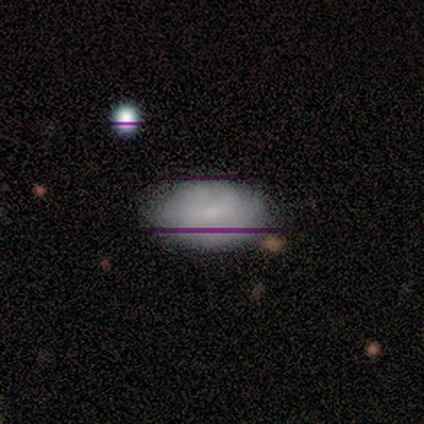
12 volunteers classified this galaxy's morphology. A smooth galaxy with no disk features (67%) that is in between round and cigar-shaped (88%). Merging: none (91%).